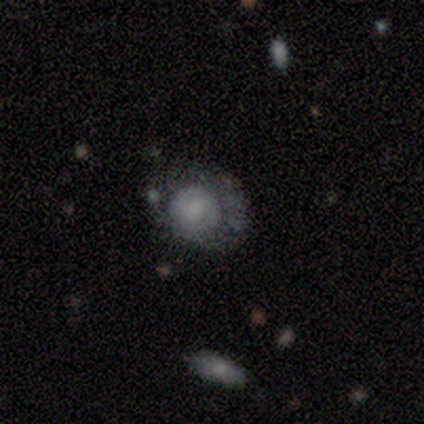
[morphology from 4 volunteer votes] Smooth or featured? 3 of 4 (75%) said featured or disk. Edge-on disk? 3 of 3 (100%) said no. Bar? 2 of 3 (67%) said weak. Spiral arms? 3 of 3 (100%) said yes. Spiral winding? 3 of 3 (100%) said tight. Spiral arm count? 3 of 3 (100%) said 2. Bulge size? 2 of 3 (67%) said moderate. Merging? 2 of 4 (50%) said none.